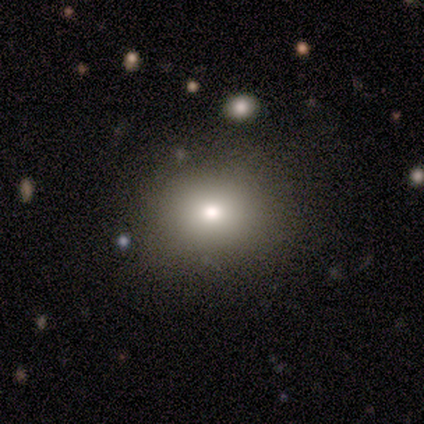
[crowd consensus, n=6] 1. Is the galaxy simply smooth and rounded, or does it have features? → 83% smooth, 17% featured or disk, 0% star or artifact.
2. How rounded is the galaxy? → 60% round, 40% in between, 0% cigar-shaped.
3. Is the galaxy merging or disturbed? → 100% none, 0% minor disturbance, 0% major disturbance, 0% merger.